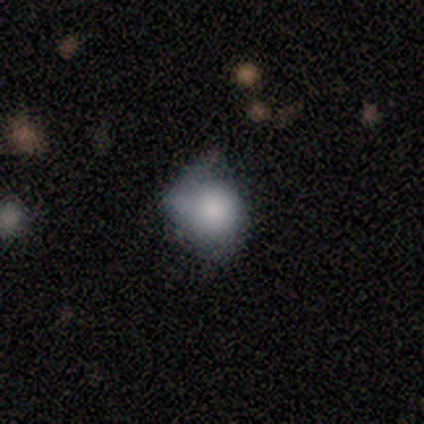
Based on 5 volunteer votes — Overall: smooth (80%). How rounded: round (50%, tied with in between). Merging: none (40%, tied with minor disturbance).